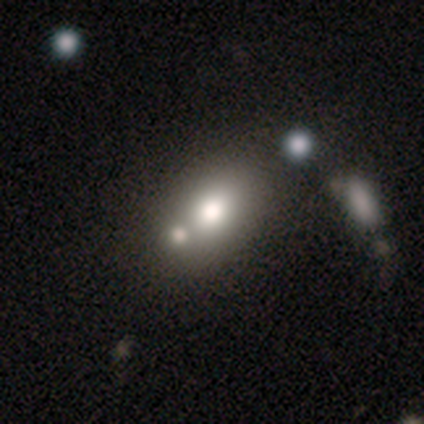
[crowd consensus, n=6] This appears to be a smooth galaxy with no disk features (83%) that is in between round and cigar-shaped (100%). Merging: none (33%, tied with major disturbance).